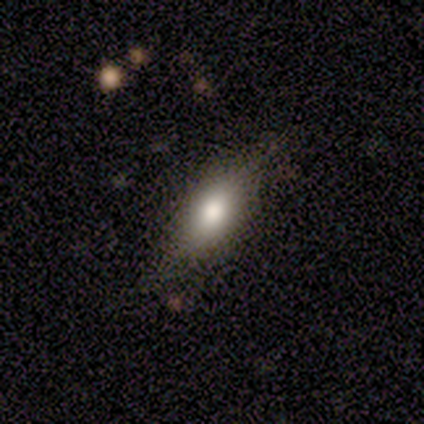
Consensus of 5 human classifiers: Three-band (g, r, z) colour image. It shows a smooth galaxy with no disk features (40%, tied with featured or disk) that is in between round and cigar-shaped (100%). Merging: none (100%).